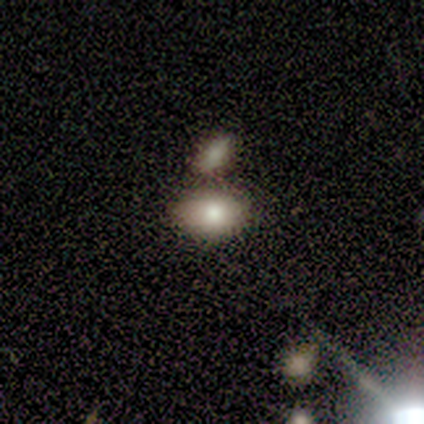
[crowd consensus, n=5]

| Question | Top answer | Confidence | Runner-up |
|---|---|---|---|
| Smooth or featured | smooth | 100% | — |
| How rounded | in between | 80% | round (20%) |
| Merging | none | 60% | minor disturbance (20%) |